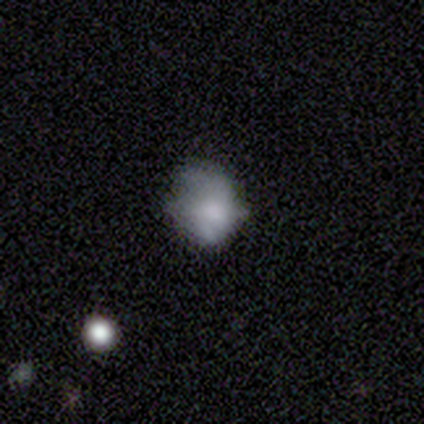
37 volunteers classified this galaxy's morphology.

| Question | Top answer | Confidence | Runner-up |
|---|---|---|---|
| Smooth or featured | smooth | 59% | featured or disk (32%) |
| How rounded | round | 55% | in between (45%) |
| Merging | none | 50% | minor disturbance (29%) |